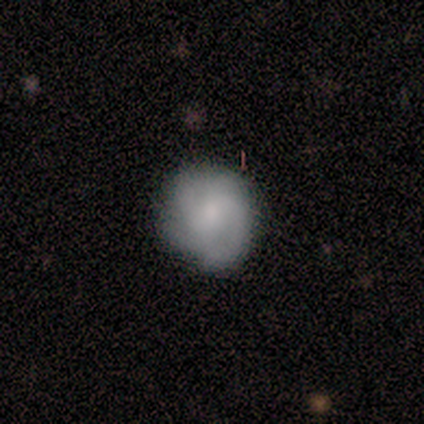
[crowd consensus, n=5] Smooth or featured: featured or disk — 80% (smooth — 20%)
Edge-on disk: no — 100%
Bar: weak — 50% (tied with no — 50%)
Spiral arms: yes — 100%
Spiral winding: tight — 50% (medium — 25%)
Spiral arm count: 2 — 50% (3 — 25%)
Bulge size: small — 75% (moderate — 25%)
Merging: none — 80% (minor disturbance — 20%)